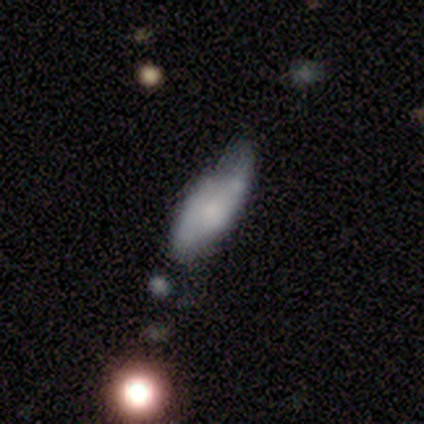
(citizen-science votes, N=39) smooth_or_featured: smooth (p=0.67) [alt: featured or disk p=0.28]
how_rounded: in between (p=0.58) [alt: cigar-shaped p=0.42]
merging: minor disturbance (p=0.41) [alt: none p=0.32]